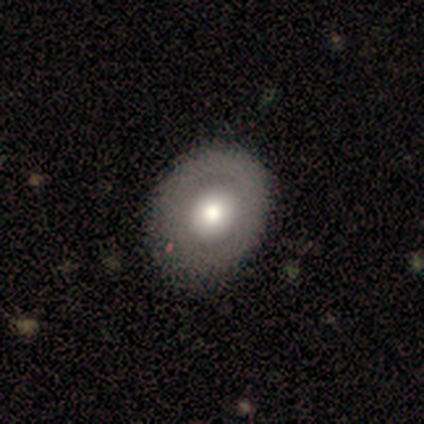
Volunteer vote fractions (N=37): featured or disk 57%, smooth 43%, star or artifact 0%. Down the decision tree: edge-on disk — no (95%); bar — no (95%); spiral arms — no (100%); bulge size — moderate (65%); merging — none (49%).